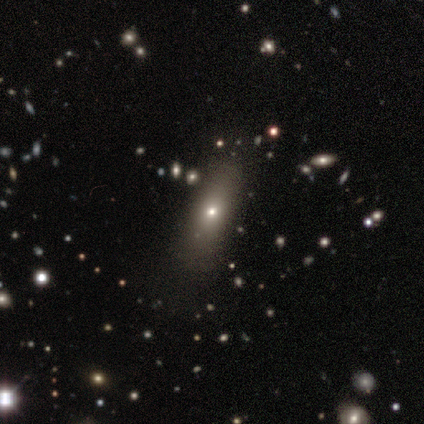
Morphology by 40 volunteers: smooth 68%, star or artifact 22%, featured or disk 10%. Down the decision tree: how rounded — in between (67%); merging — none (77%).